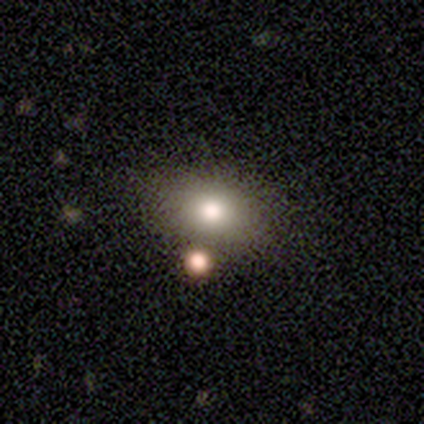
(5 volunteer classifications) Q: Smooth or featured?
A: smooth (80%); runner-up: featured or disk (20%)
Q: How rounded?
A: in between (100%)
Q: Merging?
A: none (80%); runner-up: minor disturbance (20%)